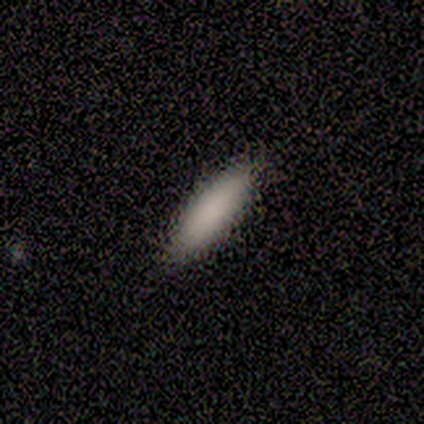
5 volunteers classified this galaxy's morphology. Q: Smooth or featured?
A: smooth (100%)
Q: How rounded?
A: cigar-shaped (80%); runner-up: in between (20%)
Q: Merging?
A: none (100%)